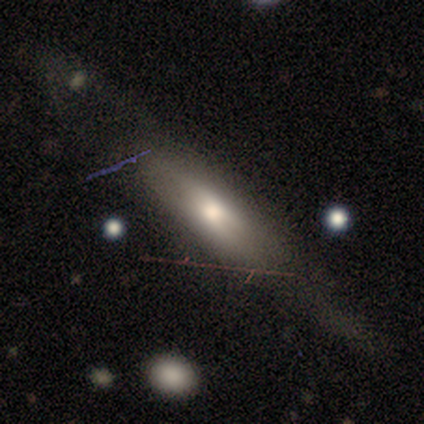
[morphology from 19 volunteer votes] A smooth galaxy with no disk features (53%) that is cigar-shaped (80%). Merging: none (79%).